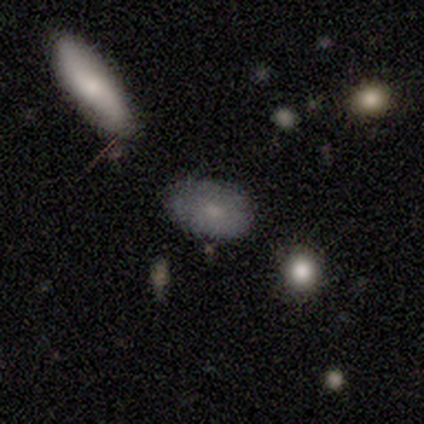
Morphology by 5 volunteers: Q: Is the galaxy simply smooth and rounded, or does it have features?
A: smooth — 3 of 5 (60%).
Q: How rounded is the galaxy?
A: in between — 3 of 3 (100%).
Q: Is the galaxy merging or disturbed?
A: none — 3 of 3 (100%).